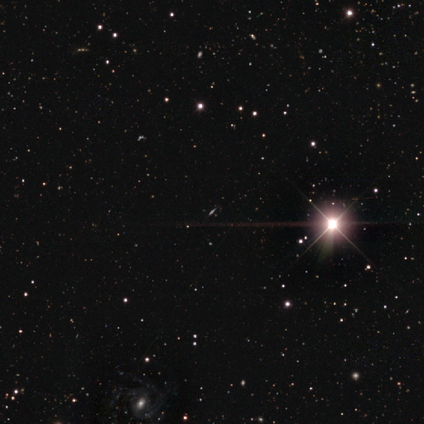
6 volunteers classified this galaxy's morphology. A star or artifact, not a galaxy (83%).

Vote fractions:
- Smooth or featured? star or artifact: 83% / smooth: 17% / featured or disk: 0%